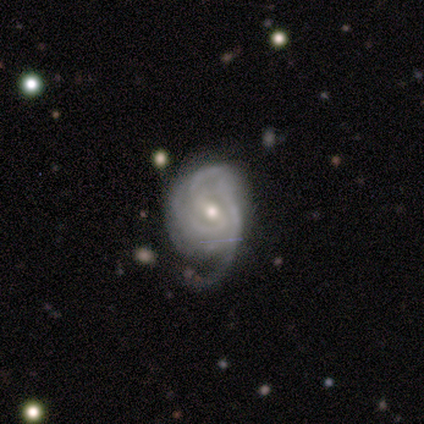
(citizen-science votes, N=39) This appears to be a featured or disk galaxy (82%) with a weak bar (61%), tight (48%) spiral arms (81%) and a moderate central bulge (55%). Merging: major disturbance (39%).